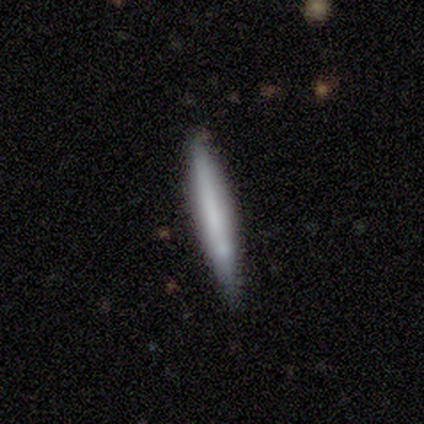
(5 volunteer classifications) Smooth or featured? 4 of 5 (80%) said smooth. How rounded? 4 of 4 (100%) said cigar-shaped. Merging? 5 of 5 (100%) said none.